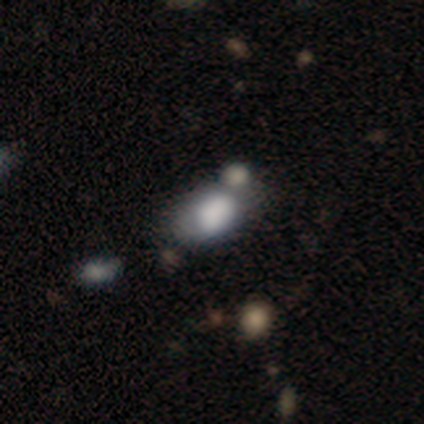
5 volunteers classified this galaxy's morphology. A smooth galaxy with no disk features (80%) that is in between round and cigar-shaped (100%).

Vote fractions:
- Smooth or featured? smooth: 80% / featured or disk: 20% / star or artifact: 0%
- How rounded? in between: 100% / round: 0% / cigar-shaped: 0%
- Merging? merger: 60% / none: 20% / minor disturbance: 20% / major disturbance: 0%